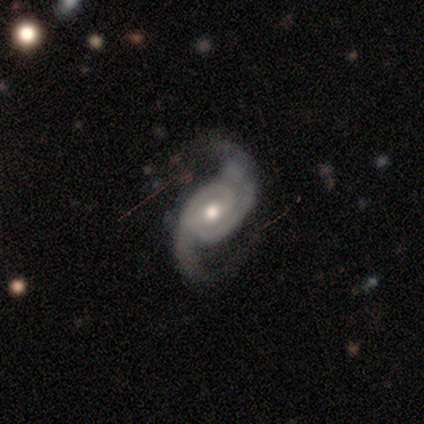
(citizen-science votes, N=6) This appears to be a featured or disk galaxy (100%) with a weak bar (67%), 2 (100%) medium (50%, tied with loose) spiral arms (100%) and a moderate central bulge (83%). Merging: none (67%).